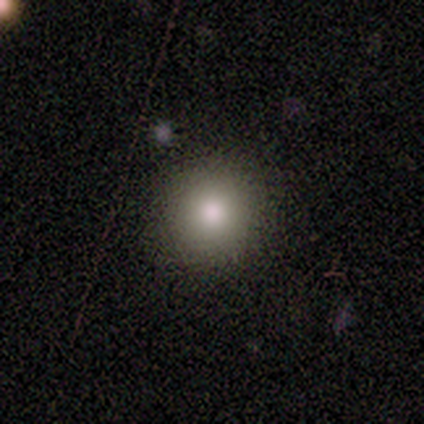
smooth 80%, star or artifact 20%, featured or disk 0%. Down the decision tree: how rounded — round (100%); merging — none (100%).